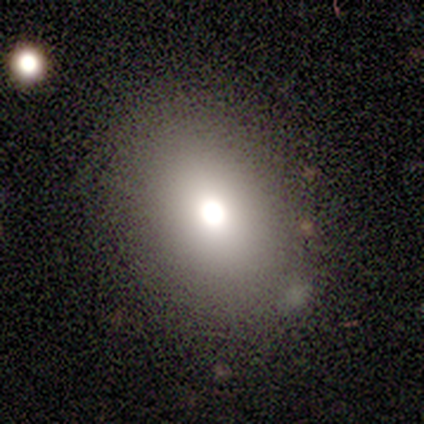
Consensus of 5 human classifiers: smooth-or-featured: smooth: 60% | featured or disk: 40% | star or artifact: 0%
  how-rounded: round: 67% | in between: 33% | cigar-shaped: 0%
  merging: none: 100% | minor disturbance: 0% | major disturbance: 0% | merger: 0%